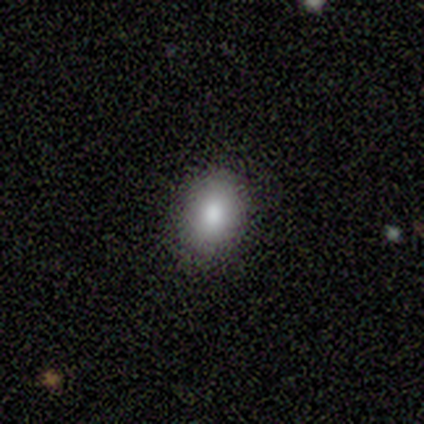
Smooth or featured? smooth (84%)
How rounded? in between (62%)
Merging? none (89%)